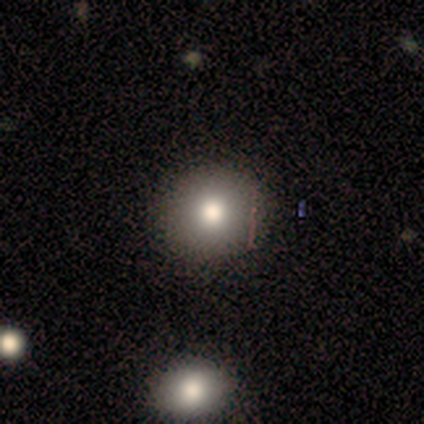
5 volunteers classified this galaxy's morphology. Smooth or featured? smooth (100%)
How rounded? round (100%)
Merging? none (100%)